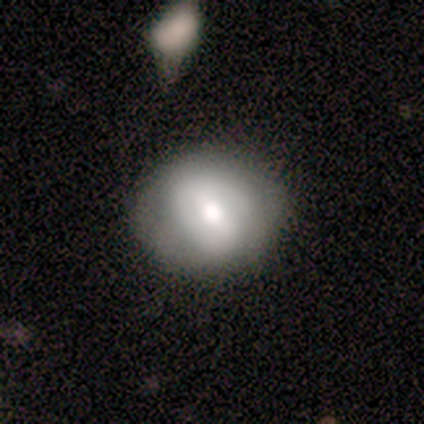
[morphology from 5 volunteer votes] type=smooth (40%, tied with featured or disk); roundness=in between (100%); merging=none (75%).